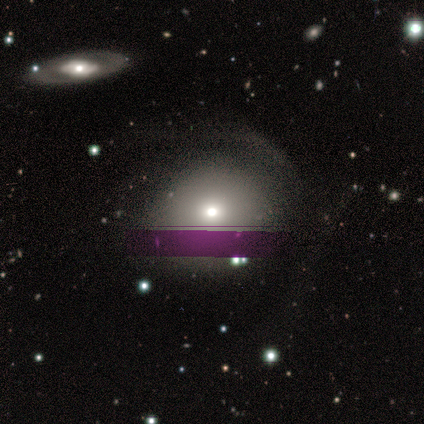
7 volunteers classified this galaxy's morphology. Smooth or featured: smooth — 57% (featured or disk — 43%)
How rounded: round — 75% (in between — 25%)
Merging: major disturbance — 57% (none — 29%)